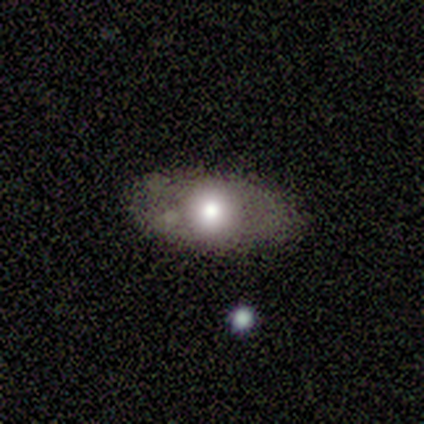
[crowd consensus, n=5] Volunteers were most divided on "merging": major disturbance: 50%, none: 25%, minor disturbance: 25%, merger: 0%. More confident: how rounded — in between (67%); smooth or featured — smooth (60%).